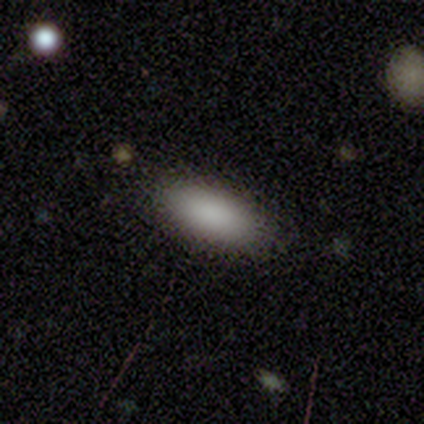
A smooth galaxy with no disk features (100%) that is in between round and cigar-shaped (80%).

Vote fractions:
- Smooth or featured? smooth: 100% / featured or disk: 0% / star or artifact: 0%
- How rounded? in between: 80% / cigar-shaped: 20% / round: 0%
- Merging? none: 100% / minor disturbance: 0% / major disturbance: 0% / merger: 0%